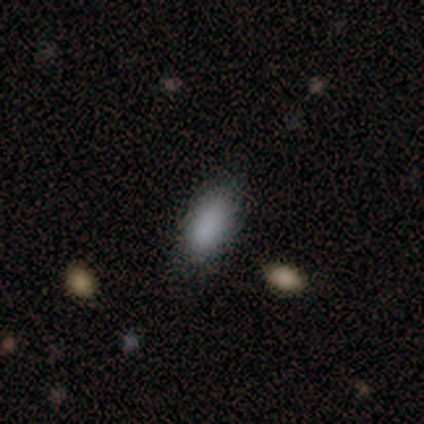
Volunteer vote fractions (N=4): Smooth or featured? smooth (75%)
How rounded? in between (100%)
Merging? none (75%)